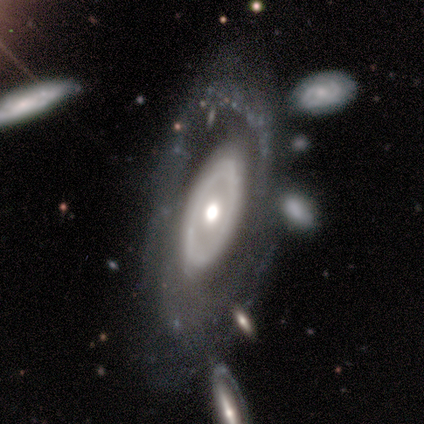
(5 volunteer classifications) featured or disk 100%, smooth 0%, star or artifact 0%. Down the decision tree: edge-on disk — no (80%); bar — no (100%); spiral arms — yes (75%); spiral arm count — can't tell (67%); spiral winding — tight (67%); bulge size — moderate (50%, tied with small); merging — minor disturbance (40%, tied with merger).